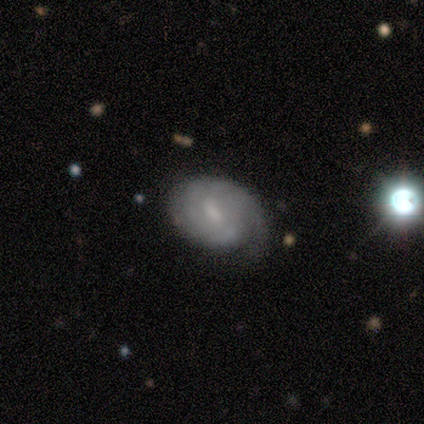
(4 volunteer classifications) Smooth or featured? featured or disk (75%)
Edge-on disk? no (100%)
Bar? weak (67%)
Spiral arms? yes (100%)
Spiral winding? tight (67%)
Spiral arm count? 2 (67%)
Bulge size? moderate (67%)
Merging? minor disturbance (50%)